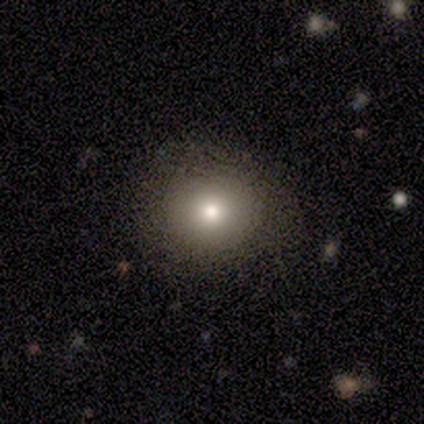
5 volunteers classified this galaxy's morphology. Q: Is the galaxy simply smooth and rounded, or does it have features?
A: smooth — 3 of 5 (60%).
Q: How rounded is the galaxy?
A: round — 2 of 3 (67%).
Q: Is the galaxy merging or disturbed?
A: none — 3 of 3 (100%).